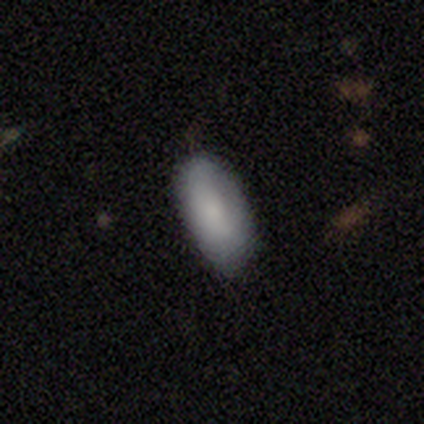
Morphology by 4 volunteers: smooth-or-featured: smooth: 75% | featured or disk: 25% | star or artifact: 0%
  how-rounded: in between: 100% | round: 0% | cigar-shaped: 0%
  merging: none: 75% | minor disturbance: 25% | major disturbance: 0% | merger: 0%